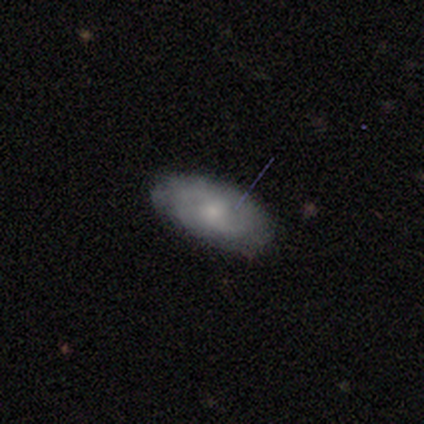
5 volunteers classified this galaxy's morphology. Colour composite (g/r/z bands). It shows a featured or disk galaxy (60%) with no bar (67%), 2 (67%) tight (100%) spiral arms (100%) and a moderate central bulge (67%). Merging: none (100%).